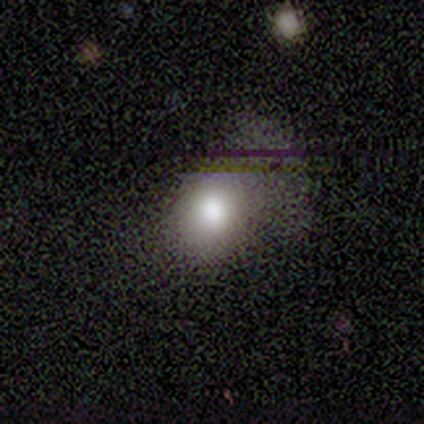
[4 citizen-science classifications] Overall: smooth (100%). How rounded: round (75%). Merging: none (75%).